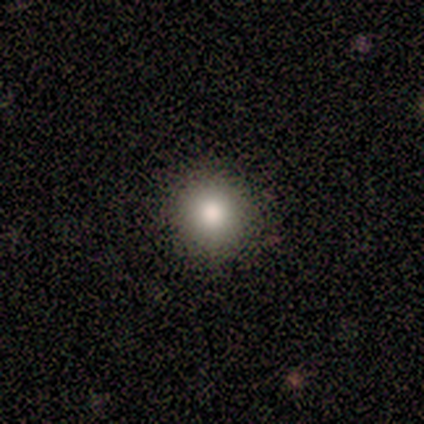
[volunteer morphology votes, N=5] smooth-or-featured: smooth: 80% | star or artifact: 20% | featured or disk: 0%
  how-rounded: round: 100% | in between: 0% | cigar-shaped: 0%
  merging: none: 100% | minor disturbance: 0% | major disturbance: 0% | merger: 0%